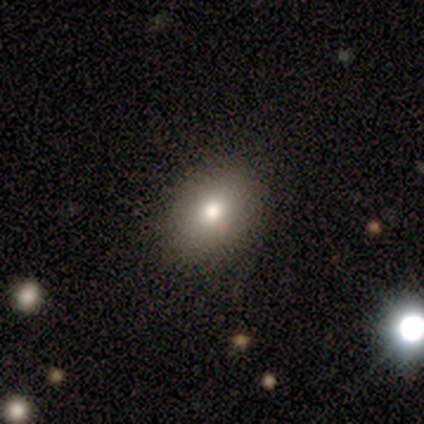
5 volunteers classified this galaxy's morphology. Smooth or featured? smooth (100%)
How rounded? in between (60%)
Merging? none (100%)